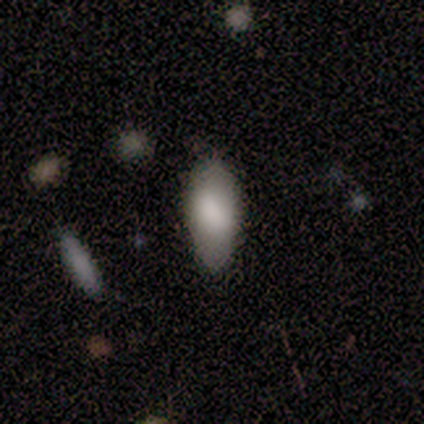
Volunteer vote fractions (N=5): A smooth galaxy with no disk features (100%) that is in between round and cigar-shaped (80%).

Vote fractions:
- Smooth or featured? smooth: 100% / featured or disk: 0% / star or artifact: 0%
- How rounded? in between: 80% / cigar-shaped: 20% / round: 0%
- Merging? none: 80% / minor disturbance: 20% / major disturbance: 0% / merger: 0%